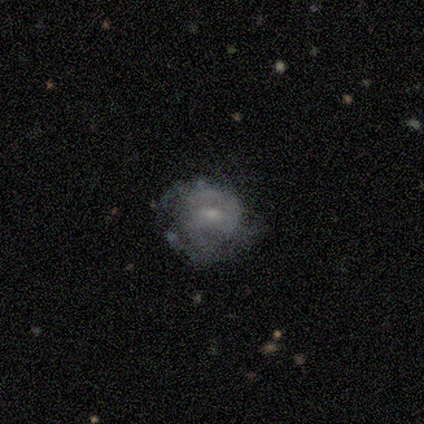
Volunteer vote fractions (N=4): A featured or disk galaxy (75%) with a strong bar (33%, tied with weak and no), 2 (50%, tied with can't tell) medium (100%) spiral arms (67%) and a small central bulge (67%).

Vote fractions:
- Smooth or featured? featured or disk: 75% / smooth: 25% / star or artifact: 0%
- Edge-on disk? no: 100% / yes: 0%
- Bar? strong: 33% (tied) / weak: 33% (tied) / no: 33% (tied)
- Spiral arms? yes: 67% / no: 33%
- Spiral winding? medium: 100% / tight: 0% / loose: 0%
- Spiral arm count? 2: 50% (tied) / can't tell: 50% (tied) / 1: 0% / 3: 0% / 4: 0% / more than 4: 0%
- Bulge size? small: 67% / moderate: 33% / dominant: 0% / large: 0% / none: 0%
- Merging? minor disturbance: 50% / none: 25% / major disturbance: 25% / merger: 0%